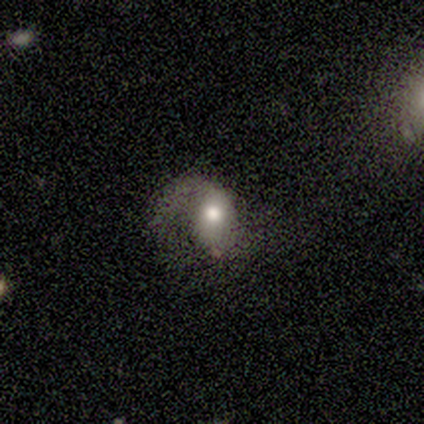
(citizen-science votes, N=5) Morphology: type=smooth (80%); roundness=in between (75%); merging=major disturbance (80%).